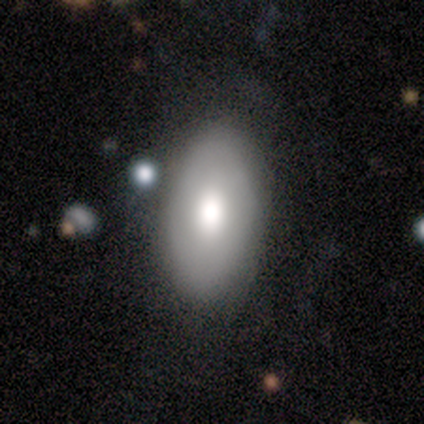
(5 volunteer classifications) A smooth galaxy with no disk features (80%) that is in between round and cigar-shaped (100%). Merging: none (100%).